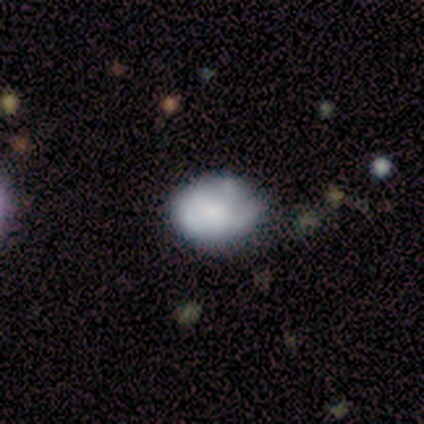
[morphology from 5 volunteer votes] This appears to be a smooth galaxy with no disk features (100%) that is in between round and cigar-shaped (80%). Merging: none (80%).